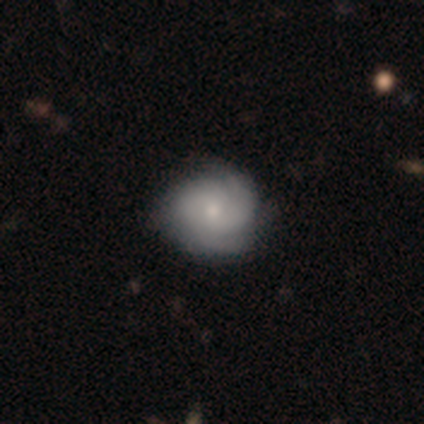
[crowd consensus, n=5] Morphology: type=featured or disk (100%); edge-on=no (100%); bar=no (80%); spiral arms=yes (80%); winding=tight (50%, tied with medium); arm count=can't tell (50%); bulge=small (60%); merging=none (100%).